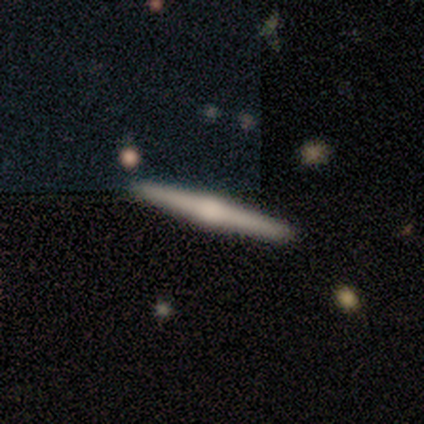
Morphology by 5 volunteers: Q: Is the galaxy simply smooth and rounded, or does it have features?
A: featured or disk — 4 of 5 (80%).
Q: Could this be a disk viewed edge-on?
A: yes — 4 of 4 (100%).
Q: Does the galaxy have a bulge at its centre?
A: rounded — 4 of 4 (100%).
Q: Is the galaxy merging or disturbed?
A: none — 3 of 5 (60%).